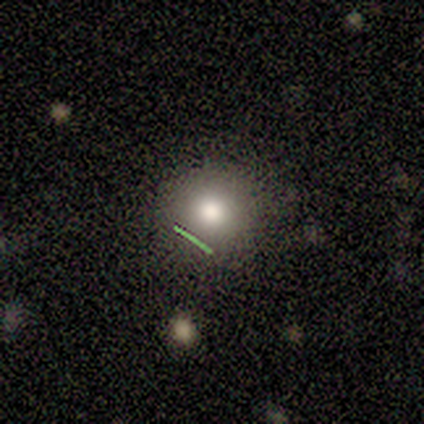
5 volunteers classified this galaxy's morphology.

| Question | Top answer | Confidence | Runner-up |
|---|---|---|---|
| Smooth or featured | smooth | 100% | — |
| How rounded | round | 80% | in between (20%) |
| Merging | none | 100% | — |